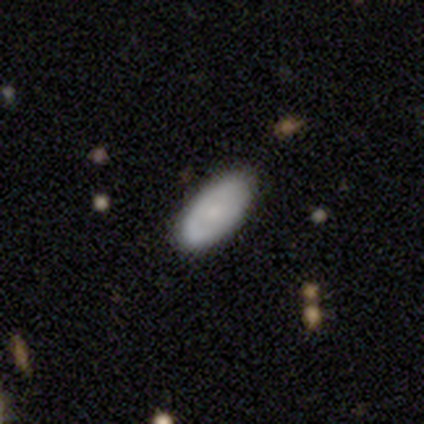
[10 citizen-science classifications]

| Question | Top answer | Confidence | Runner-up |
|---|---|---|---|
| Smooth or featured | smooth | 60% | featured or disk (40%) |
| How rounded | in between | 100% | — |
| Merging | none | 70% | minor disturbance (30%) |